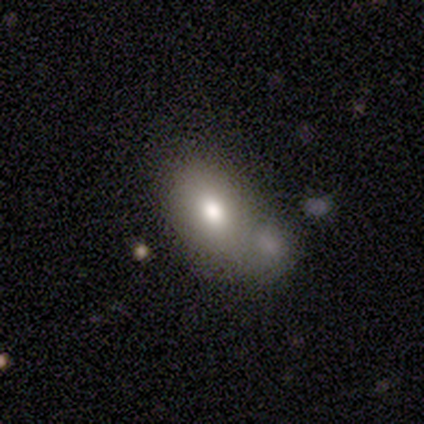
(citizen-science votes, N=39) A smooth galaxy with no disk features (74%) that is in between round and cigar-shaped (90%).

Vote fractions:
- Smooth or featured? smooth: 74% / featured or disk: 15% / star or artifact: 10%
- How rounded? in between: 90% / round: 10% / cigar-shaped: 0%
- Merging? merger: 40% / none: 31% / minor disturbance: 23% / major disturbance: 6%